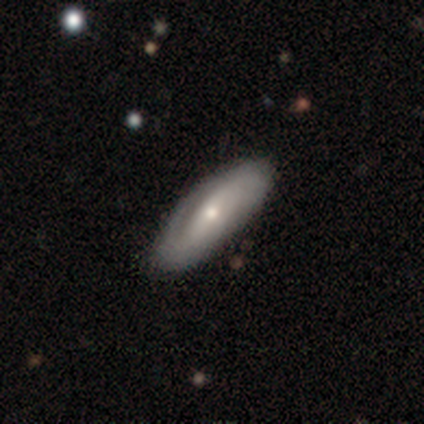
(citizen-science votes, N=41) Smooth or featured? 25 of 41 (61%) said featured or disk. Edge-on disk? 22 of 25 (88%) said no. Bar? 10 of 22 (45%) said weak. Spiral arms? 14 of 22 (64%) said yes. Spiral winding? 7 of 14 (50%) said tight. Spiral arm count? 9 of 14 (64%) said 2. Bulge size? 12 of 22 (55%) said moderate. Merging? 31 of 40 (78%) said none.